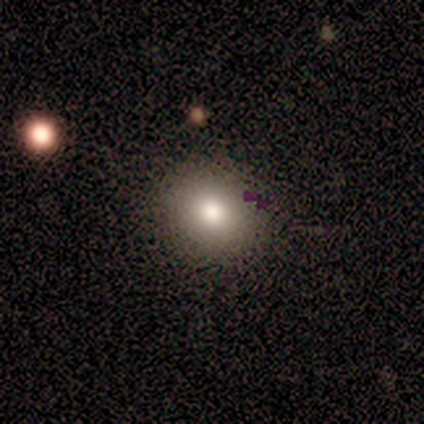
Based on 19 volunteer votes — A smooth galaxy with no disk features (74%) that is in between round and cigar-shaped (57%).

Vote fractions:
- Smooth or featured? smooth: 74% / featured or disk: 16% / star or artifact: 11%
- How rounded? in between: 57% / round: 43% / cigar-shaped: 0%
- Merging? none: 88% / minor disturbance: 12% / major disturbance: 0% / merger: 0%